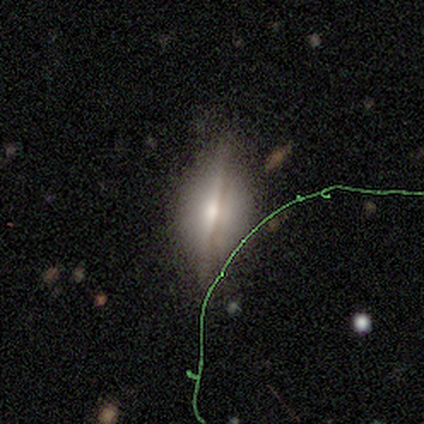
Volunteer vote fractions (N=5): Q: Smooth or featured?
A: smooth (60%); runner-up: featured or disk (20%)
Q: How rounded?
A: in between (67%); runner-up: cigar-shaped (33%)
Q: Merging?
A: none (100%)